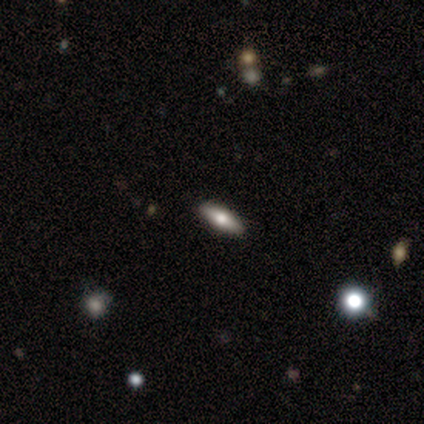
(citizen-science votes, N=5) This is clearly a featured or disk galaxy (80%). It is likely viewed edge-on (75%). Edge-on bulge: clearly rounded (100%). Merging: likely none (60%).